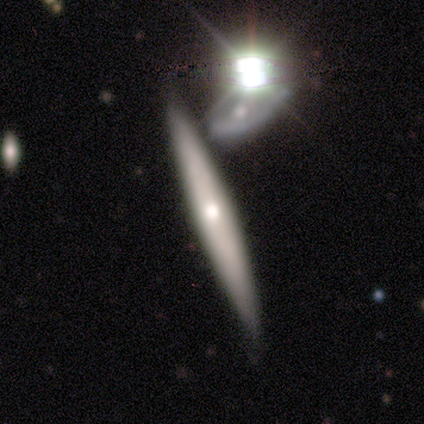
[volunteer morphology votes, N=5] A featured or disk galaxy (80%) viewed edge-on (75%) with a rounded central bulge (67%).

Vote fractions:
- Smooth or featured? featured or disk: 80% / smooth: 20% / star or artifact: 0%
- Edge-on disk? yes: 75% / no: 25%
- Edge-on bulge? rounded: 67% / none: 33% / boxy: 0%
- Merging? none: 80% / merger: 20% / minor disturbance: 0% / major disturbance: 0%